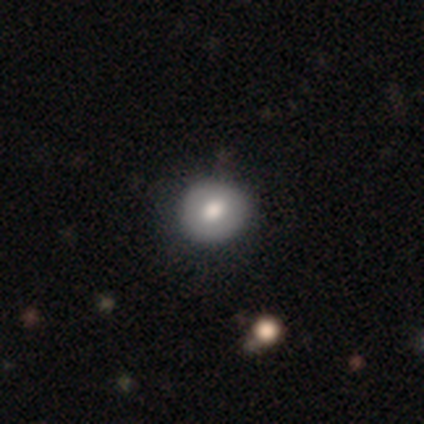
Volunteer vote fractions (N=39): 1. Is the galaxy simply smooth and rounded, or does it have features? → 69% smooth, 23% star or artifact, 8% featured or disk.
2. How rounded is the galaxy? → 89% round, 11% in between, 0% cigar-shaped.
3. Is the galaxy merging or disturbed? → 83% none, 17% minor disturbance, 0% major disturbance, 0% merger.